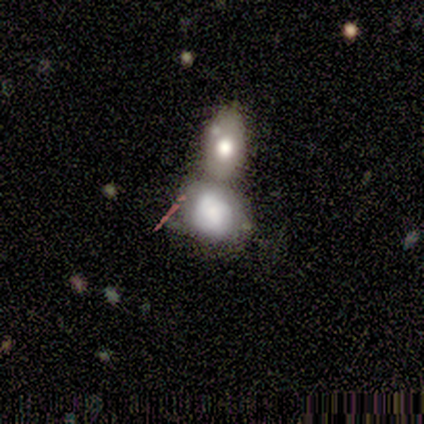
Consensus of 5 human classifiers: Smooth or featured?
  - featured or disk: 60% *
  - smooth: 40%
  - star or artifact: 0%
Edge-on disk?
  - no: 100% *
  - yes: 0%
Bar?
  - no: 100% *
  - strong: 0%
  - weak: 0%
Spiral arms?
  - no: 100% *
  - yes: 0%
Bulge size?
  - dominant: 33% * (tied)
  - large: 33% * (tied)
  - small: 33% * (tied)
  - moderate: 0%
  - none: 0%
Merging?
  - merger: 60% *
  - none: 20%
  - major disturbance: 20%
  - minor disturbance: 0%